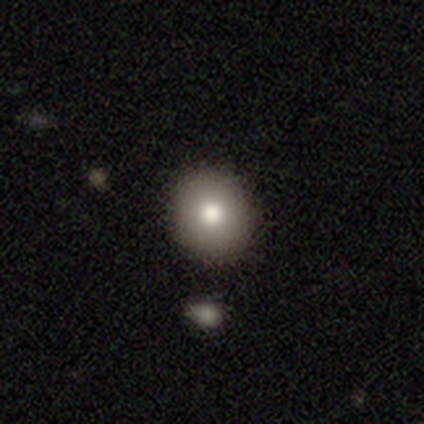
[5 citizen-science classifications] A featured or disk galaxy (60%) with no bar (100%), no spiral arms (100%) and a moderate central bulge (100%).

Vote fractions:
- Smooth or featured? featured or disk: 60% / smooth: 40% / star or artifact: 0%
- Edge-on disk? no: 100% / yes: 0%
- Bar? no: 100% / strong: 0% / weak: 0%
- Spiral arms? no: 100% / yes: 0%
- Bulge size? moderate: 100% / dominant: 0% / large: 0% / small: 0% / none: 0%
- Merging? none: 60% / minor disturbance: 40% / major disturbance: 0% / merger: 0%